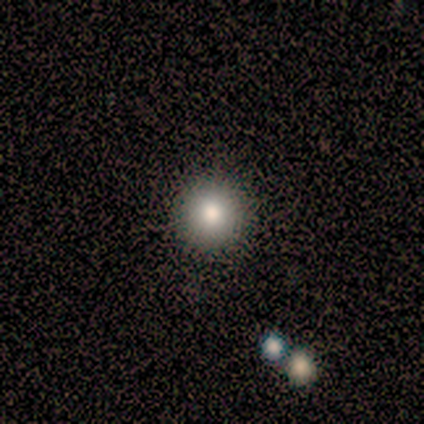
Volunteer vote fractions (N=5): Smooth or featured? 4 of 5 (80%) said smooth. How rounded? 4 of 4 (100%) said round. Merging? 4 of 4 (100%) said none.